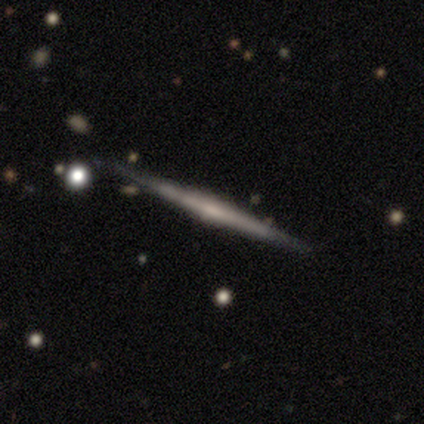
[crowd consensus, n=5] smooth_or_featured: featured or disk (p=1.00)
disk_edge_on: yes (p=1.00)
edge_on_bulge: none (p=0.60) [alt: rounded p=0.40]
merging: none (p=0.80) [alt: minor disturbance p=0.20]